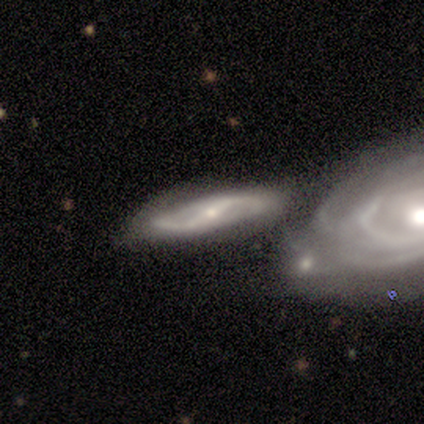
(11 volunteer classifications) Overall: featured or disk (100%). Edge-on disk: no (73%). Bar: strong (75%). Spiral arms: yes (88%). Spiral arm count: 2 (100%). Spiral winding: medium (57%; loose 29%). Bulge size: small (75%). Merging: merger (64%).